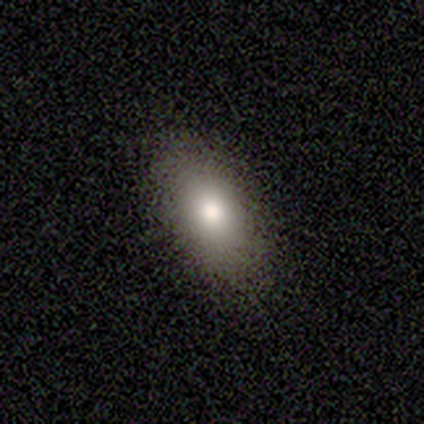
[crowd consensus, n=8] Q: Smooth or featured?
A: smooth (50%); tied with: featured or disk (50%)
Q: How rounded?
A: in between (100%)
Q: Merging?
A: none (75%); runner-up: minor disturbance (25%)